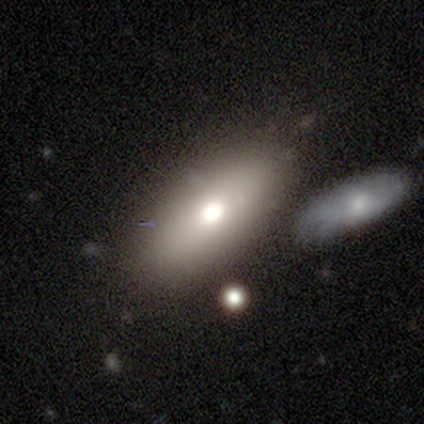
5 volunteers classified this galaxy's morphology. Overall: featured or disk (60%; smooth 40%). Edge-on disk: no (100%). Bar: no (100%). Spiral arms: no (100%). Bulge size: large (33%, tied with moderate and none). Merging: none (100%).